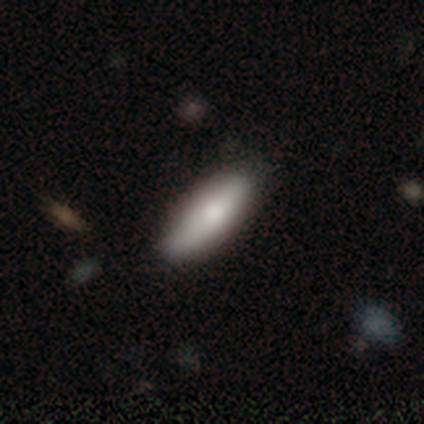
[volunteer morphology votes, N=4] Volunteers were most divided on "how rounded": cigar-shaped: 67%, in between: 33%, round: 0%. More confident: smooth or featured — smooth (75%); merging — none (75%).